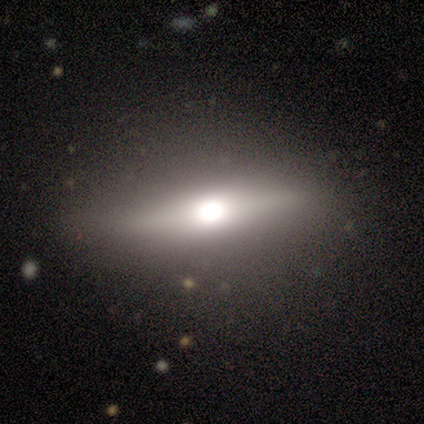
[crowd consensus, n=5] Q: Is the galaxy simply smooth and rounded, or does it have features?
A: featured or disk — 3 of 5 (60%).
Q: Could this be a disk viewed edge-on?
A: yes — 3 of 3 (100%).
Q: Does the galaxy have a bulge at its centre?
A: rounded — 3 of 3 (100%).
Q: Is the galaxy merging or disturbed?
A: none — 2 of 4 (50%, tied with minor disturbance).